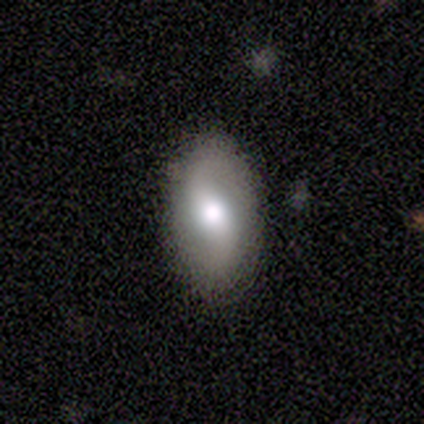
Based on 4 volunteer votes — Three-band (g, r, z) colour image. It shows a smooth galaxy with no disk features (50%, tied with featured or disk) that is in between round and cigar-shaped (50%, tied with cigar-shaped). Merging: none (100%).